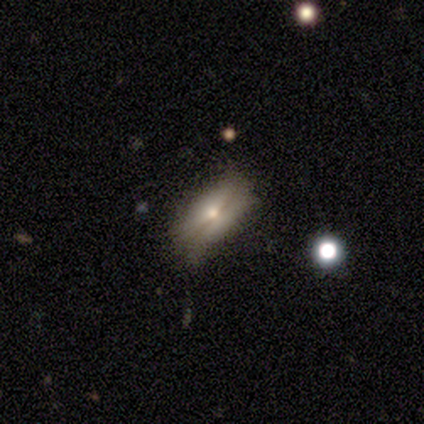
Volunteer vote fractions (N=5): Q: Smooth or featured?
A: smooth (60%); runner-up: featured or disk (40%)
Q: How rounded?
A: in between (100%)
Q: Merging?
A: none (60%); runner-up: minor disturbance (20%)